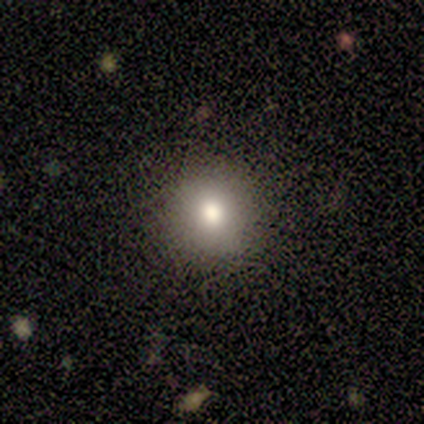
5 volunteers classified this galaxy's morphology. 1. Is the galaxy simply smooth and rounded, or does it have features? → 80% smooth, 20% featured or disk, 0% star or artifact.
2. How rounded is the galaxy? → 100% round, 0% in between, 0% cigar-shaped.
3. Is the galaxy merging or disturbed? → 100% none, 0% minor disturbance, 0% major disturbance, 0% merger.